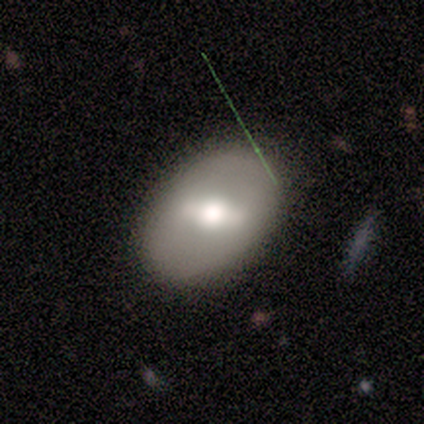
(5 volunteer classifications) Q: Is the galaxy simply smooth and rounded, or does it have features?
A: featured or disk — 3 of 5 (60%).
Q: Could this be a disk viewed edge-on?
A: no — 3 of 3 (100%).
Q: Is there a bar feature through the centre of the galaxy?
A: strong — 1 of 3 (33%, tied with weak and no).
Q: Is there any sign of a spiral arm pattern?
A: no — 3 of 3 (100%).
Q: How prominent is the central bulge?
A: moderate — 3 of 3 (100%).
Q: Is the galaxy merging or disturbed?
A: none — 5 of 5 (100%).